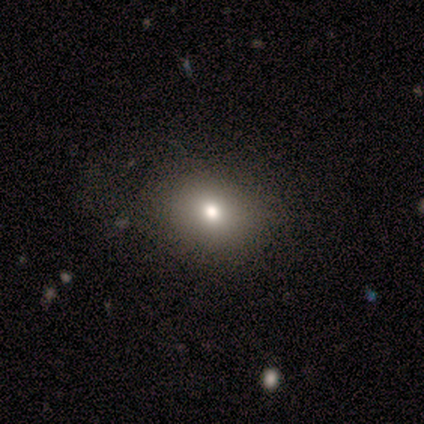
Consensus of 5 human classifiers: This is clearly a smooth galaxy (100%). How rounded: clearly round (80%). Merging: clearly none (80%).